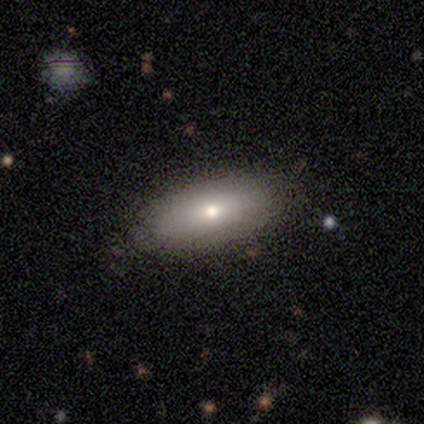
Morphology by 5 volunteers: smooth 60%, featured or disk 40%, star or artifact 0%. Down the decision tree: how rounded — in between (100%); merging — none (80%).